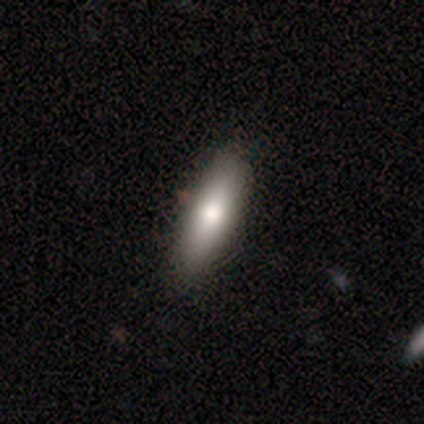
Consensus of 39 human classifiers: Q: Smooth or featured?
A: smooth (72%); runner-up: featured or disk (26%)
Q: How rounded?
A: in between (50%); tied with: cigar-shaped (50%)
Q: Merging?
A: none (55%); runner-up: minor disturbance (5%)